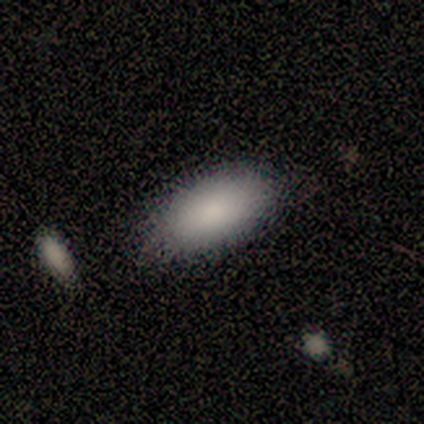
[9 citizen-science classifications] Smooth or featured?
  - smooth: 100% *
  - featured or disk: 0%
  - star or artifact: 0%
How rounded?
  - in between: 78% *
  - cigar-shaped: 22%
  - round: 0%
Merging?
  - none: 78% *
  - minor disturbance: 22%
  - major disturbance: 0%
  - merger: 0%